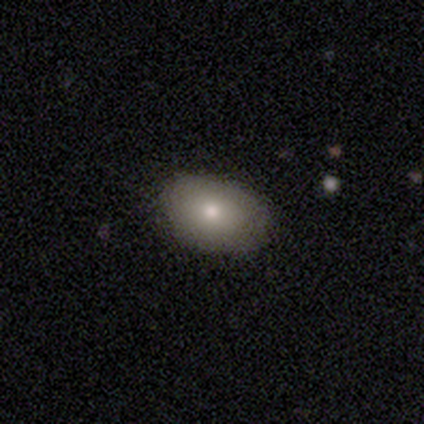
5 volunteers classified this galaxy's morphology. This appears to be a smooth galaxy with no disk features (80%) that is in between round and cigar-shaped (100%). Merging: none (100%).